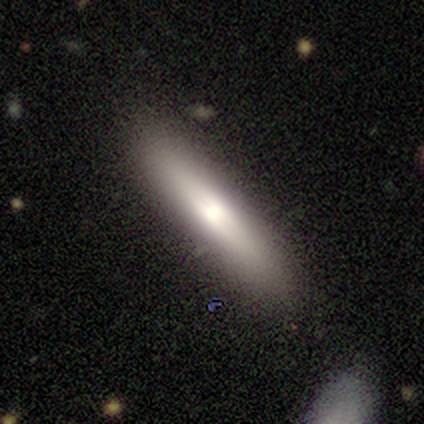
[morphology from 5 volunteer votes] This is clearly a featured or disk galaxy (80%). It is clearly viewed edge-on (100%). Edge-on bulge: possibly boxy (50%). Merging: clearly none (80%).